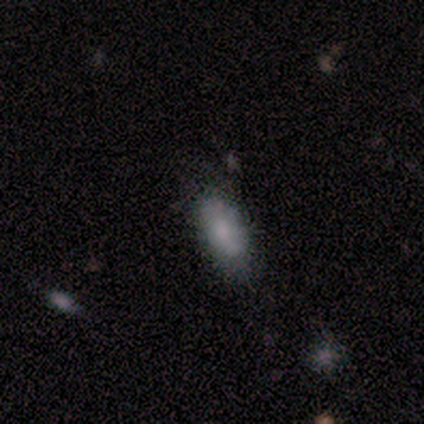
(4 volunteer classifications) A smooth galaxy with no disk features (100%) that is in between round and cigar-shaped (100%). Merging: none (100%).